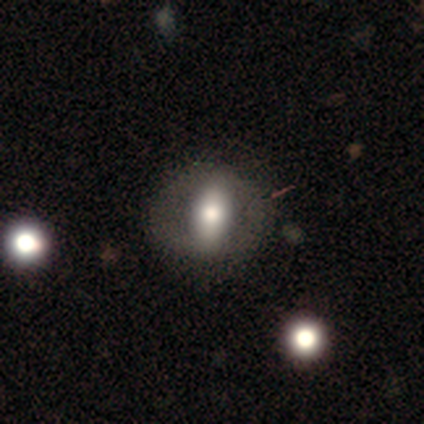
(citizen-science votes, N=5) Smooth or featured: featured or disk — 60% (smooth — 20%)
Edge-on disk: no — 100%
Bar: no — 67% (strong — 33%)
Spiral arms: no — 100%
Bulge size: moderate — 67% (large — 33%)
Merging: none — 75% (minor disturbance — 25%)